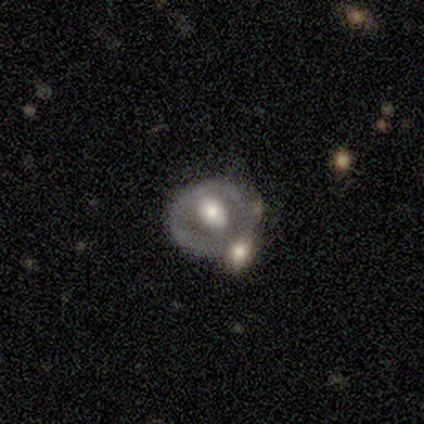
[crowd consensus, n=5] Morphology: type=featured or disk (100%); edge-on=no (100%); bar=no (100%); spiral arms=no (100%); bulge=moderate (100%); merging=none (80%).